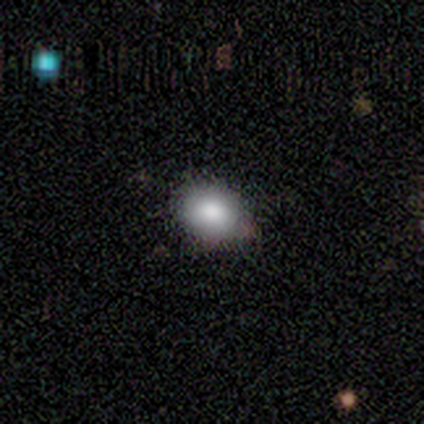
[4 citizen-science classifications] Smooth or featured? smooth (100%)
How rounded? in between (75%)
Merging? none (75%)